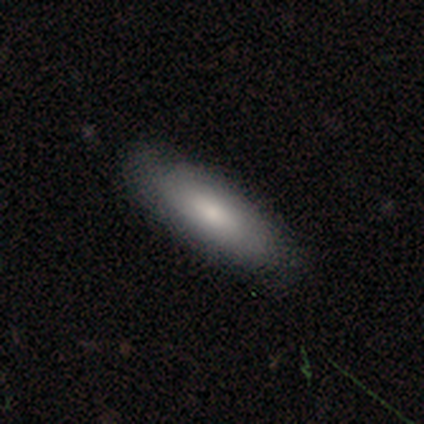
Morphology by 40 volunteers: This is likely a smooth galaxy (68%). How rounded: likely in between (67%). Merging: likely none (74%).